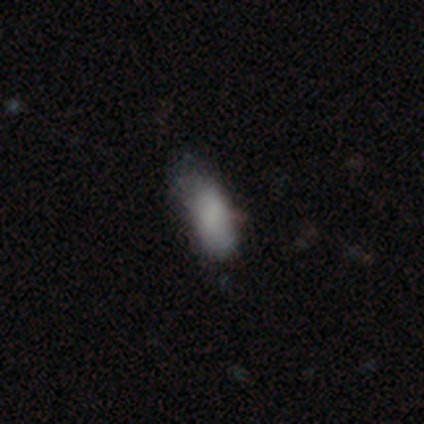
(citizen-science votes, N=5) A smooth galaxy with no disk features (60%) that is in between round and cigar-shaped (67%). Merging: major disturbance (60%).